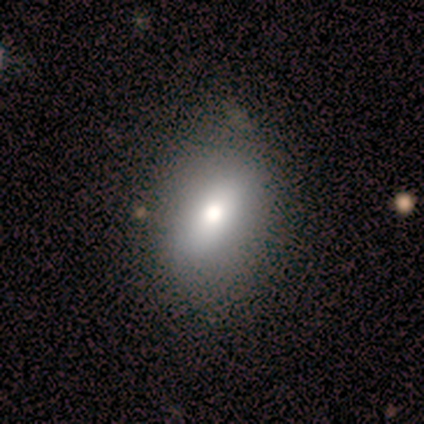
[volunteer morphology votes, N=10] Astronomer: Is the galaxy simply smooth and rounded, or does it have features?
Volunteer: smooth — 60%.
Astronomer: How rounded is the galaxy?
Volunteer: in between — 100%.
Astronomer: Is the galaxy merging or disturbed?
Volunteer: none — 100%.